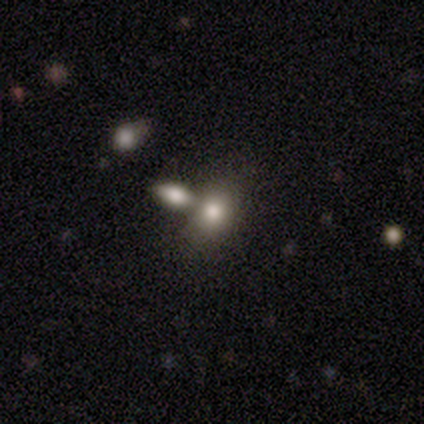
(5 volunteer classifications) A smooth galaxy with no disk features (60%) that is in between round and cigar-shaped (67%). Merging: none (25%, tied with minor disturbance, major disturbance and merger).